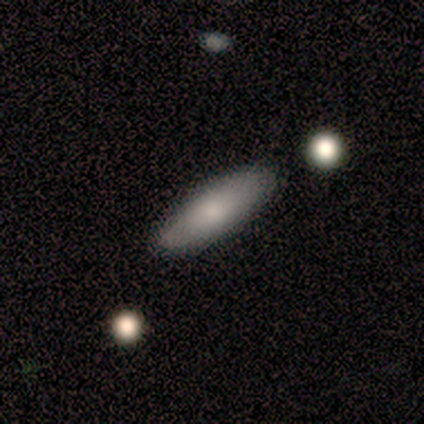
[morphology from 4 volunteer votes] This is clearly a smooth galaxy (100%). How rounded: likely cigar-shaped (75%). Merging: clearly none (100%).